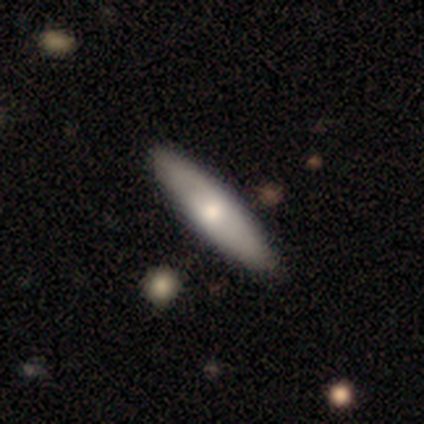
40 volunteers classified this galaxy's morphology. Smooth or featured? 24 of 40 (60%) said smooth. How rounded? 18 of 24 (75%) said cigar-shaped. Merging? 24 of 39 (62%) said none.